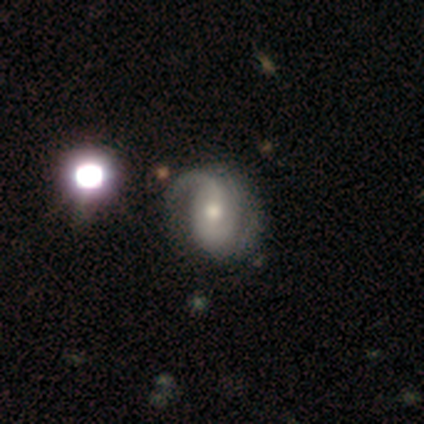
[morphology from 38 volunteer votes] A featured or disk galaxy (84%) with no bar (59%), 2 (50%) medium (50%) spiral arms (88%) and a moderate central bulge (50%). Merging: none (39%).